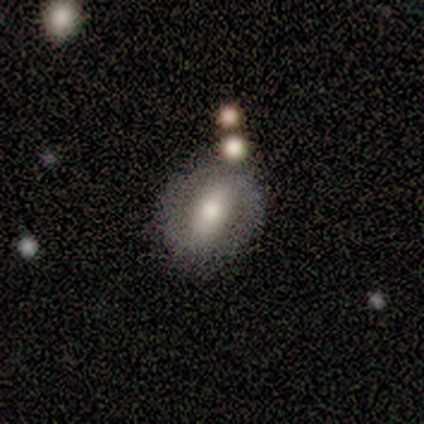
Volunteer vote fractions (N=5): featured or disk 100%, smooth 0%, star or artifact 0%. Down the decision tree: edge-on disk — no (100%); bar — strong (80%); spiral arms — no (60%); bulge size — moderate (60%); merging — none (80%).